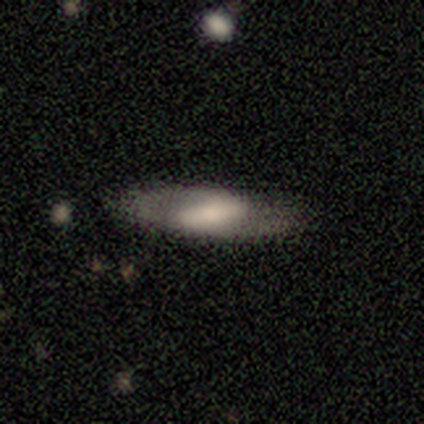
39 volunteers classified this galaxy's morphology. This appears to be a featured or disk galaxy (56%) with a strong bar (53%), 2 (75%) medium (58%) spiral arms (63%) and a moderate central bulge (58%). Merging: none (81%).